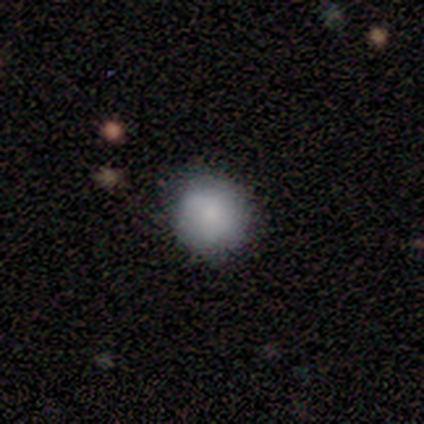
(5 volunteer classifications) smooth_or_featured: smooth (p=1.00)
how_rounded: round (p=1.00)
merging: none (p=0.60) [alt: minor disturbance p=0.40]